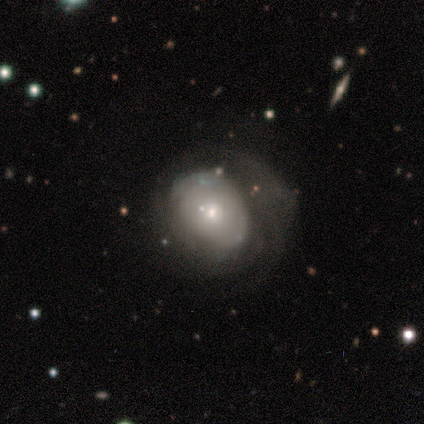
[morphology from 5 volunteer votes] Smooth or featured?
  - smooth: 80% *
  - featured or disk: 20%
  - star or artifact: 0%
How rounded?
  - round: 100% *
  - in between: 0%
  - cigar-shaped: 0%
Merging?
  - major disturbance: 60% *
  - minor disturbance: 40%
  - none: 0%
  - merger: 0%